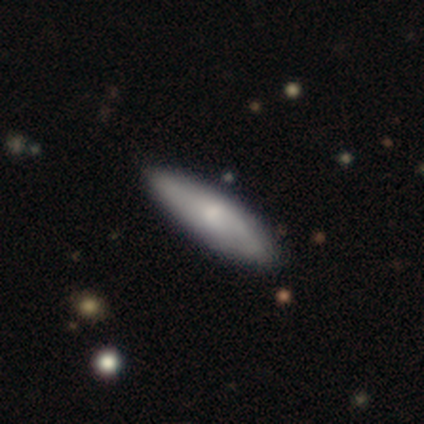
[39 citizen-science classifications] smooth_or_featured: smooth (p=0.62) [alt: featured or disk p=0.36]
how_rounded: cigar-shaped (p=0.75) [alt: in between p=0.25]
merging: none (p=0.84) [alt: minor disturbance p=0.13]